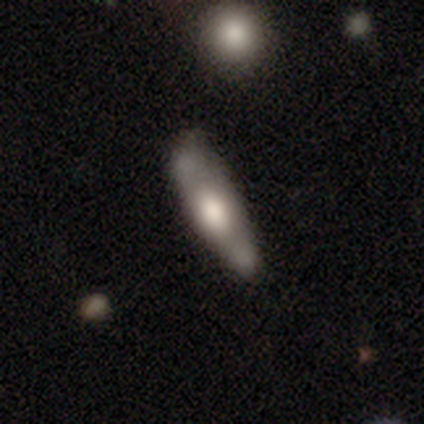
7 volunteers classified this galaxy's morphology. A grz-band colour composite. It shows a featured or disk galaxy (71%) viewed edge-on (100%) with a rounded central bulge (100%). Merging: none (71%).